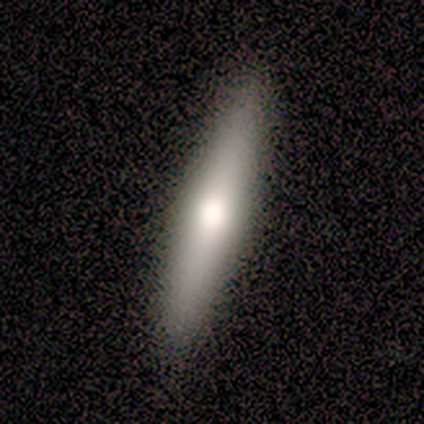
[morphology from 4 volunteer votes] Q: Smooth or featured?
A: smooth (75%); runner-up: featured or disk (25%)
Q: How rounded?
A: cigar-shaped (100%)
Q: Merging?
A: none (100%)